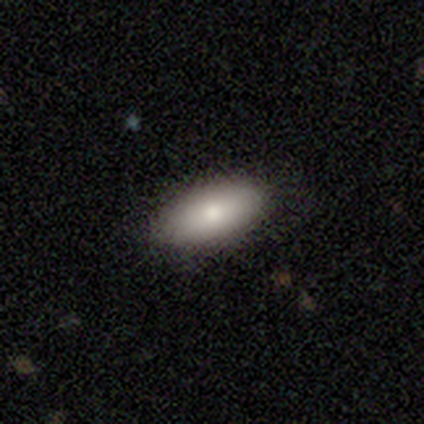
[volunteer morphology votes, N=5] Smooth or featured? 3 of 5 (60%) said smooth. How rounded? 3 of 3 (100%) said in between. Merging? 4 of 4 (100%) said none.